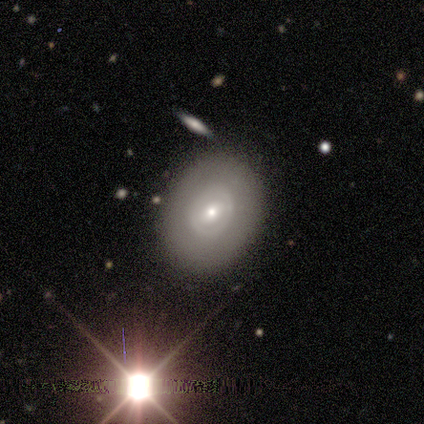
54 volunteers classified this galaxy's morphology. type=featured or disk (57%); edge-on=no (100%); bar=no (52%); spiral arms=no (94%); bulge=moderate (48%, tied with small); merging=none (88%).